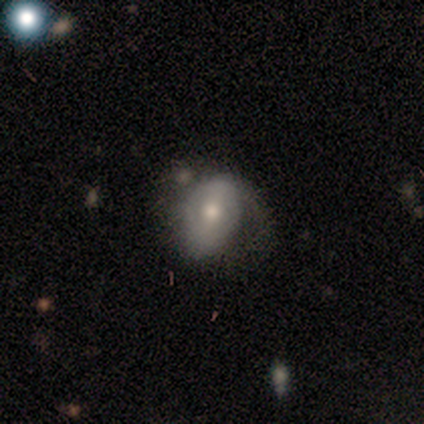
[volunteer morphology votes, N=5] Smooth or featured? 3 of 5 (60%) said featured or disk. Edge-on disk? 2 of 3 (67%) said no. Bar? 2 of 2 (100%) said no. Spiral arms? 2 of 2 (100%) said yes. Spiral winding? 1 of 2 (50%, tied with medium) said tight. Spiral arm count? 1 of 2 (50%, tied with can't tell) said 2. Bulge size? 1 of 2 (50%, tied with small) said moderate. Merging? 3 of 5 (60%) said none.